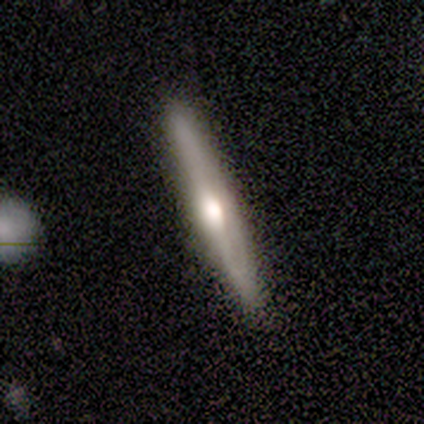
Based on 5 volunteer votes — Smooth or featured? 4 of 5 (80%) said featured or disk. Edge-on disk? 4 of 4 (100%) said yes. Edge-on bulge? 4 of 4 (100%) said rounded. Merging? 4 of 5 (80%) said none.